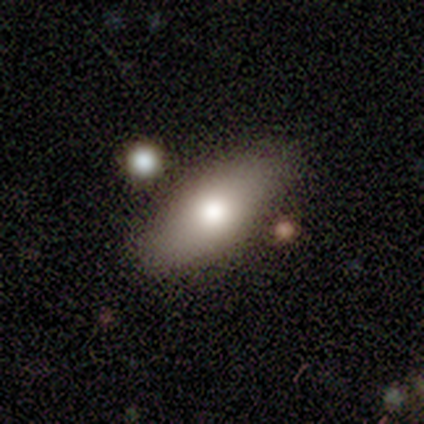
Smooth or featured?
  - smooth: 81% *
  - featured or disk: 16%
  - star or artifact: 3%
How rounded?
  - in between: 80% *
  - cigar-shaped: 17%
  - round: 3%
Merging?
  - none: 47% *
  - merger: 17%
  - minor disturbance: 8%
  - major disturbance: 3%